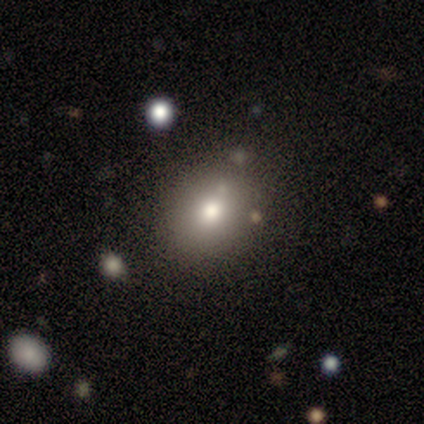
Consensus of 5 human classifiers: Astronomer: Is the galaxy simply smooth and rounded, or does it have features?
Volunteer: smooth — 60%.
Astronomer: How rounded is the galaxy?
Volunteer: round — 67%.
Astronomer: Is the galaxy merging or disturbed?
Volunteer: none — 75%.